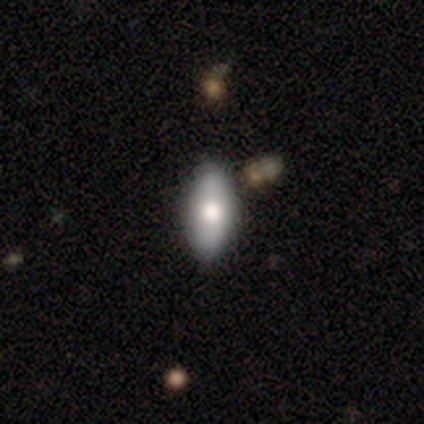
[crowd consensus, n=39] smooth_or_featured: smooth (p=0.79) [alt: featured or disk p=0.15]
how_rounded: in between (p=0.84) [alt: cigar-shaped p=0.16]
merging: none (p=0.65) [alt: minor disturbance p=0.08]